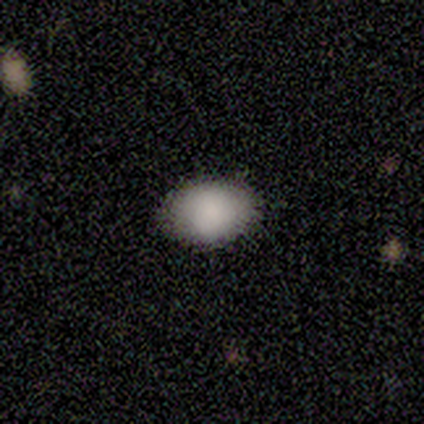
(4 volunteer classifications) This appears to be a smooth galaxy with no disk features (75%) that is in between round and cigar-shaped (67%). Merging: none (67%).